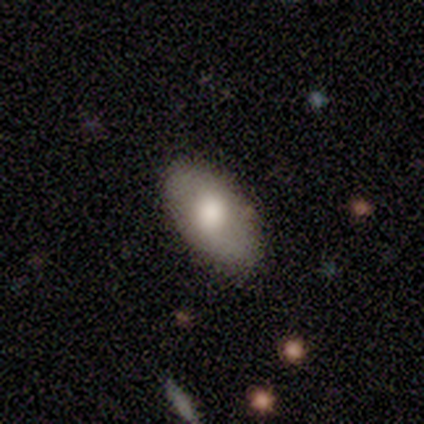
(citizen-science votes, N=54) smooth_or_featured: smooth (p=0.52) [alt: featured or disk p=0.48]
how_rounded: in between (p=0.93) [alt: round p=0.04]
merging: none (p=0.85) [alt: minor disturbance p=0.15]